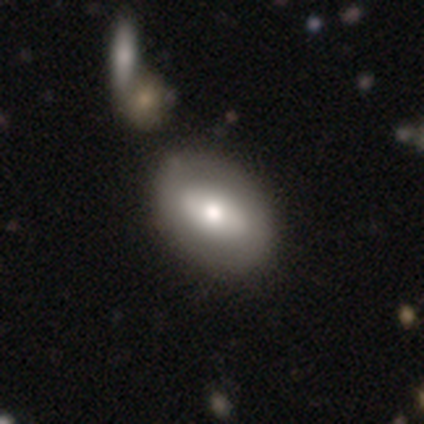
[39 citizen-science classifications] smooth-or-featured: smooth: 49% (tied) | featured or disk: 49% (tied) | star or artifact: 3%
  how-rounded: in between: 95% | round: 5% | cigar-shaped: 0%
  merging: none: 71% | minor disturbance: 8% | merger: 5% | major disturbance: 3%